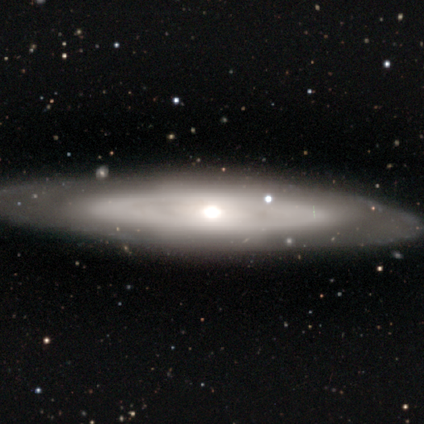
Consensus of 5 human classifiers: Volunteers were most divided on "bar": no: 75%, weak: 25%, strong: 0%. More confident: smooth or featured — featured or disk (100%); merging — none (100%); edge-on disk — no (80%); spiral arms — no (75%); bulge size — moderate (75%).